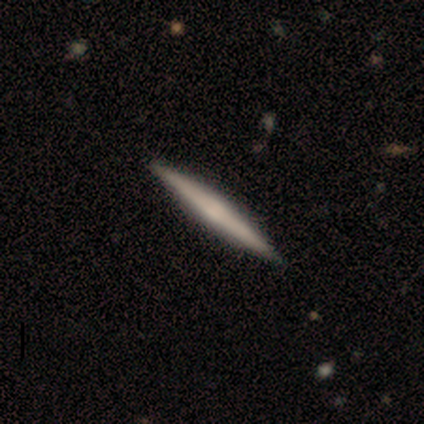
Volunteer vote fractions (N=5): Overall: featured or disk (60%; smooth 40%). Edge-on disk: yes (100%). Edge-on bulge: boxy (33%, tied with none and rounded). Merging: none (100%).